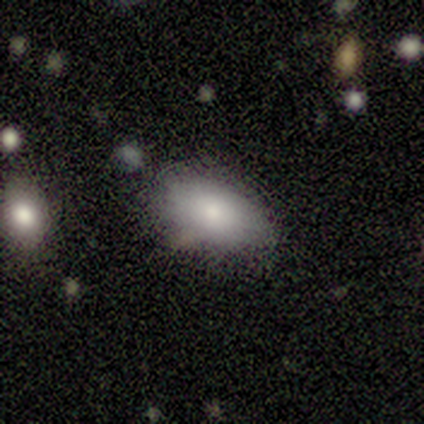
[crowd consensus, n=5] Smooth or featured?
  - smooth: 100% *
  - featured or disk: 0%
  - star or artifact: 0%
How rounded?
  - in between: 80% *
  - round: 20%
  - cigar-shaped: 0%
Merging?
  - none: 60% *
  - minor disturbance: 20%
  - merger: 20%
  - major disturbance: 0%